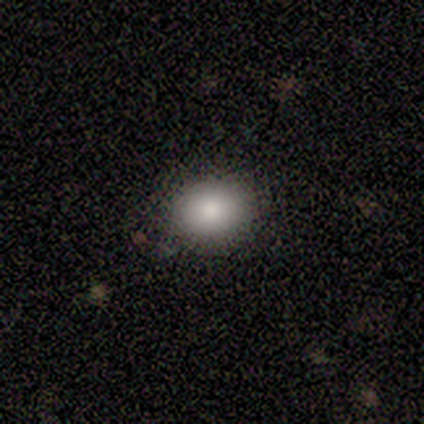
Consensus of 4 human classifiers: Overall: smooth (100%). How rounded: round (75%). Merging: none (75%).